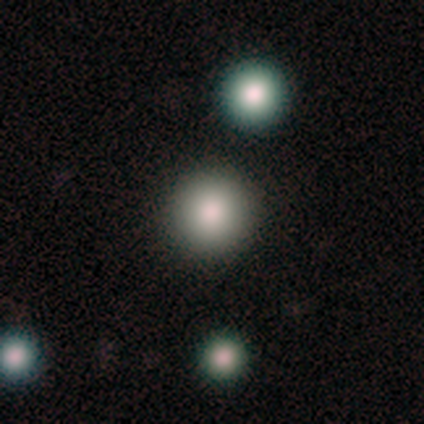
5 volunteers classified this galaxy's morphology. Smooth or featured: smooth — 80% (star or artifact — 20%)
How rounded: round — 100%
Merging: none — 100%